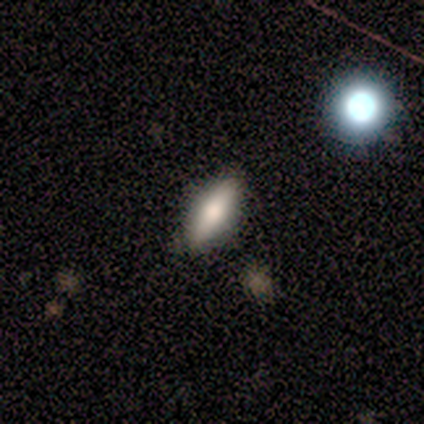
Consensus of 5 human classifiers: This appears to be a smooth galaxy with no disk features (80%) that is in between round and cigar-shaped (50%, tied with cigar-shaped). Merging: none (100%).